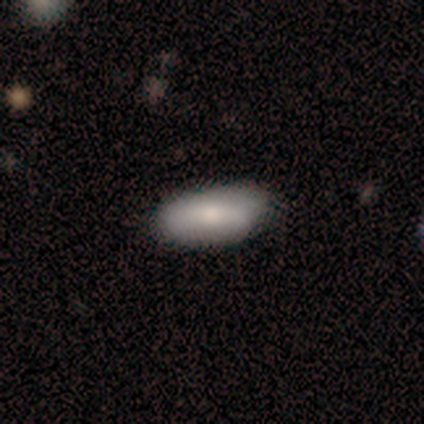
A smooth galaxy with no disk features (100%) that is in between round and cigar-shaped (60%). Merging: none (100%).